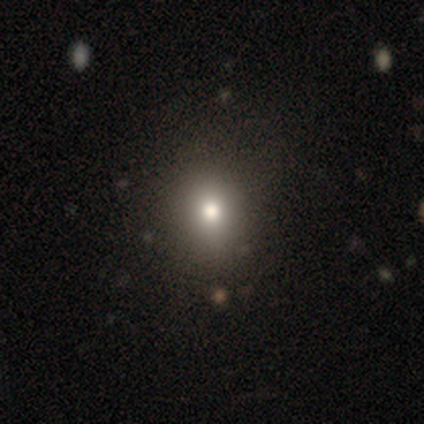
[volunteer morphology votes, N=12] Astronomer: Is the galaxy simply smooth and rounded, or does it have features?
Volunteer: smooth — 58%.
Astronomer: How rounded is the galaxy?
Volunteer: in between — 57% (runner-up: round, 43%).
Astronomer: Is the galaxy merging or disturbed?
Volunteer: none — 70%.